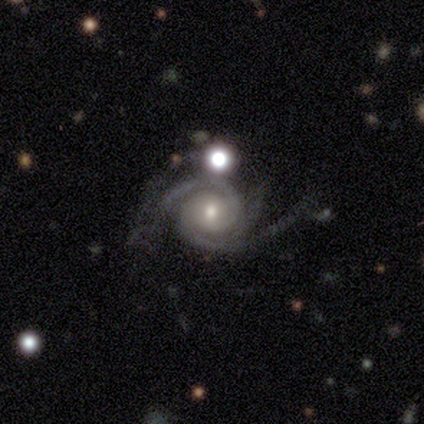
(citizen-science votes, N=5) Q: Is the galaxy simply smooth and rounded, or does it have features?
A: featured or disk — 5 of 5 (100%).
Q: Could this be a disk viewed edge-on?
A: no — 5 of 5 (100%).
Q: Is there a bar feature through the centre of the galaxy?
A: weak — 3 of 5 (60%).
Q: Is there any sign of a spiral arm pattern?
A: yes — 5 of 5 (100%).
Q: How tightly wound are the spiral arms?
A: tight — 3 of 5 (60%).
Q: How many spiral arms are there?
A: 2 — 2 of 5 (40%, tied with 3).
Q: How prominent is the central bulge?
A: small — 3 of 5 (60%).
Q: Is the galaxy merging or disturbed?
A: none — 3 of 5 (60%).